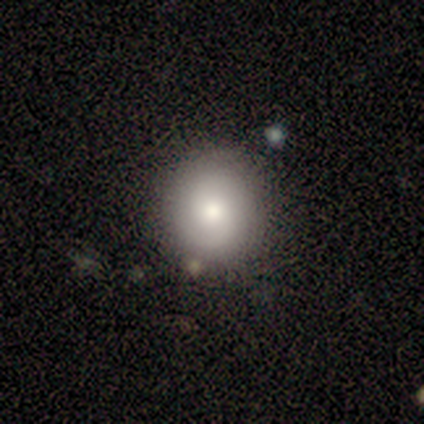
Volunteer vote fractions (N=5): smooth 80%, featured or disk 20%, star or artifact 0%. Down the decision tree: how rounded — round (100%); merging — none (80%).